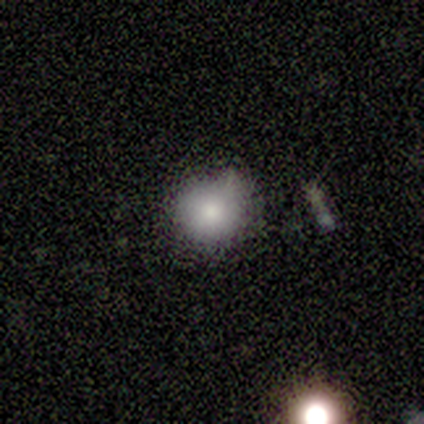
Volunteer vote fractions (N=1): Smooth or featured: smooth — 100%
How rounded: round — 100%
Merging: minor disturbance — 100%